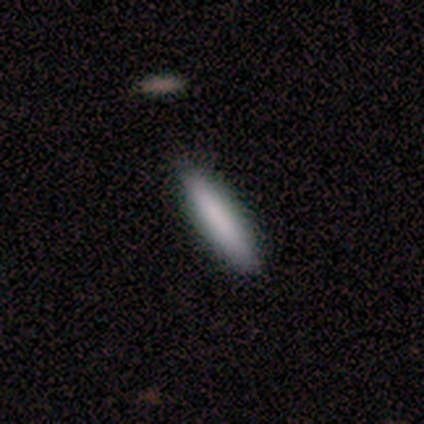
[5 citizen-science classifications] Q: Smooth or featured?
A: smooth (80%); runner-up: featured or disk (20%)
Q: How rounded?
A: cigar-shaped (75%); runner-up: in between (25%)
Q: Merging?
A: none (80%); runner-up: minor disturbance (20%)